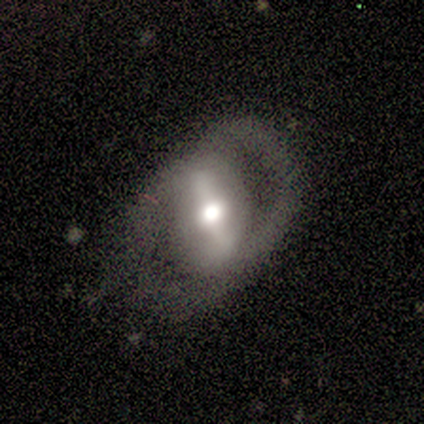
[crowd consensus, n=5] This is clearly a featured or disk galaxy (100%). It is clearly not viewed edge-on (100%). Bar: likely strong (60%). Spiral arm pattern: clearly no (80%). Central bulge: likely moderate (60%). Merging: clearly none (80%).